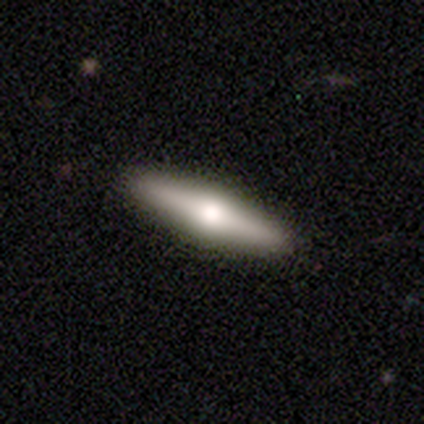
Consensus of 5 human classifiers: smooth-or-featured: smooth: 80% | featured or disk: 20% | star or artifact: 0%
  how-rounded: cigar-shaped: 100% | round: 0% | in between: 0%
  merging: none: 100% | minor disturbance: 0% | major disturbance: 0% | merger: 0%